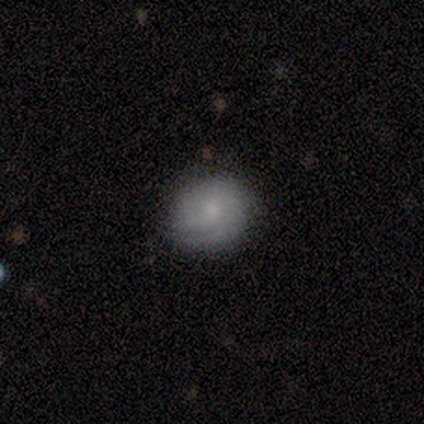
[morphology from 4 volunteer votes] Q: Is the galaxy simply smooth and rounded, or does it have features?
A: smooth — 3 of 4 (75%).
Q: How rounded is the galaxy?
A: round — 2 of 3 (67%).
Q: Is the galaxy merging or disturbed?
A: minor disturbance — 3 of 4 (75%).